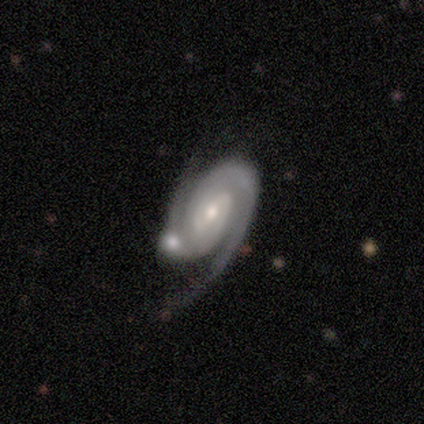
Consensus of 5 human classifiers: Smooth or featured? featured or disk (100%)
Edge-on disk? no (100%)
Bar? strong (40%, tied with no)
Spiral arms? yes (100%)
Spiral winding? medium (60%)
Spiral arm count? 2 (100%)
Bulge size? small (60%)
Merging? minor disturbance (60%)